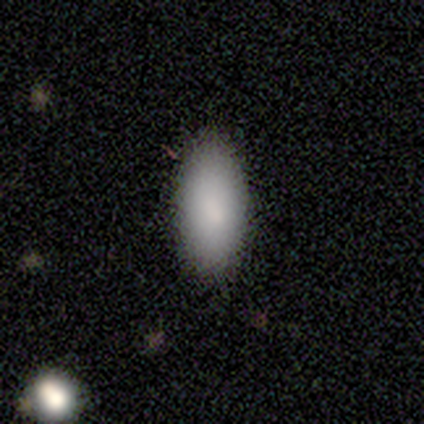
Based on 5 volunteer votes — Overall: smooth (100%). How rounded: in between (80%). Merging: none (100%).